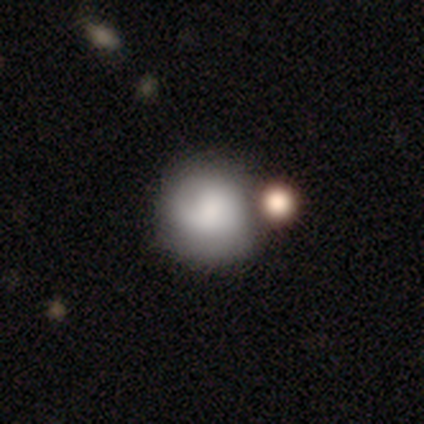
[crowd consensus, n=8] Morphology: type=smooth (50%, tied with featured or disk); roundness=round (100%); merging=none (38%).